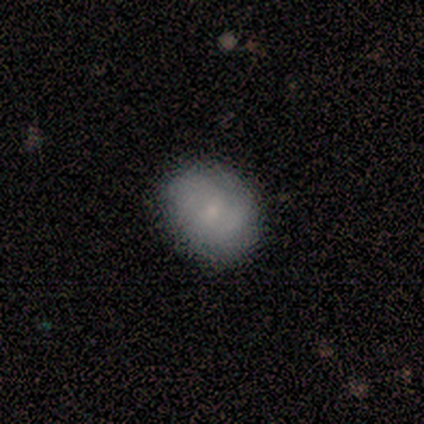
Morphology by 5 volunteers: Smooth or featured? 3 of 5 (60%) said smooth. How rounded? 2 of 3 (67%) said round. Merging? 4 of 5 (80%) said none.